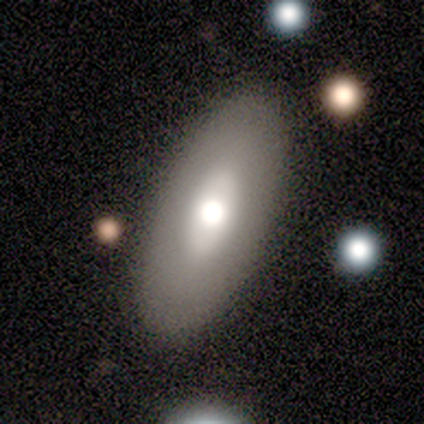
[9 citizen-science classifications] Overall: smooth (78%). How rounded: in between (100%). Merging: none (78%).